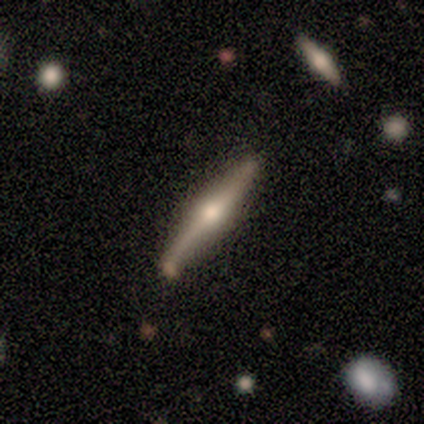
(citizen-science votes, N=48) This is likely a featured or disk galaxy (79%). It is clearly viewed edge-on (100%). Edge-on bulge: clearly rounded (97%). Merging: clearly none (81%).